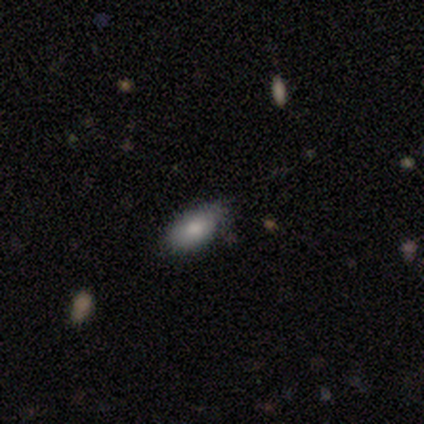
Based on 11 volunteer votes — smooth_or_featured: smooth (p=0.73) [alt: featured or disk p=0.27]
how_rounded: in between (p=0.88) [alt: cigar-shaped p=0.12]
merging: none (p=0.64) [alt: minor disturbance p=0.27]